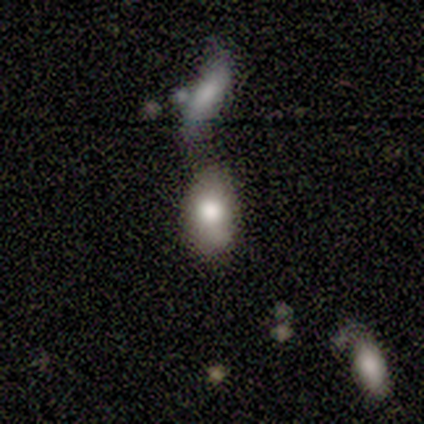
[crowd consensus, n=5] smooth-or-featured: smooth: 100% | featured or disk: 0% | star or artifact: 0%
  how-rounded: in between: 80% | round: 20% | cigar-shaped: 0%
  merging: none: 100% | minor disturbance: 0% | major disturbance: 0% | merger: 0%